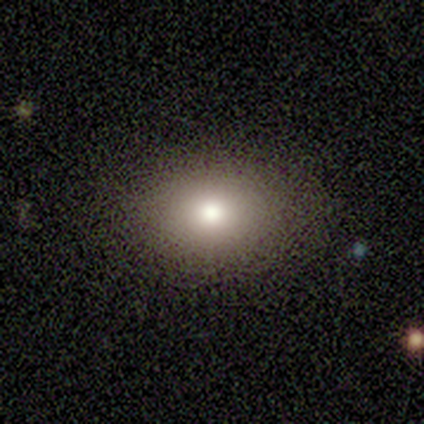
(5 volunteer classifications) A smooth galaxy with no disk features (80%) that is round (50%, tied with in between). Merging: none (100%).